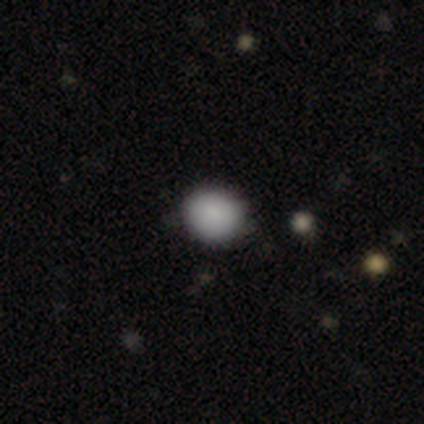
A smooth galaxy with no disk features (85%) that is round (73%).

Vote fractions:
- Smooth or featured? smooth: 85% / featured or disk: 10% / star or artifact: 5%
- How rounded? round: 73% / in between: 24% / cigar-shaped: 3%
- Merging? none: 81% / minor disturbance: 14% / major disturbance: 3% / merger: 3%